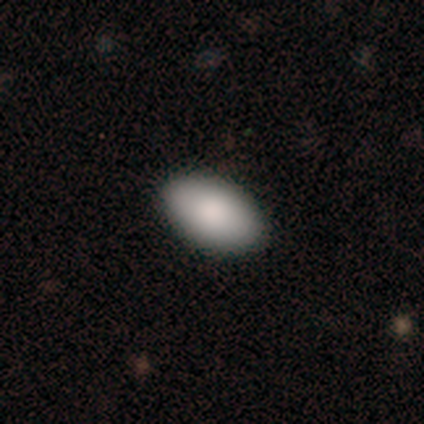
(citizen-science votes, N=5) Smooth or featured? smooth (60%)
How rounded? in between (100%)
Merging? none (80%)